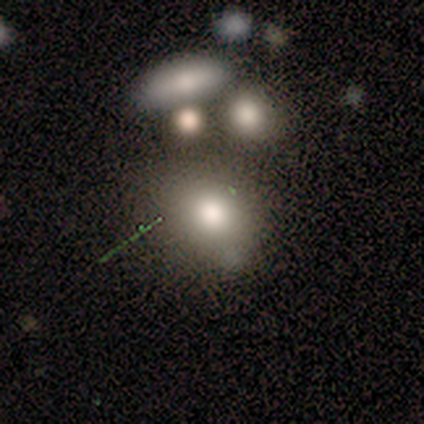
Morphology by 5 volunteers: This appears to be a smooth galaxy with no disk features (80%) that is round (100%). Merging: none (80%).